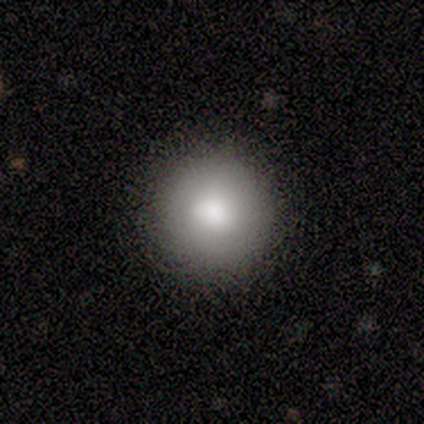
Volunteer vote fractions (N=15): This appears to be a smooth galaxy with no disk features (80%) that is round (92%). Merging: none (93%).